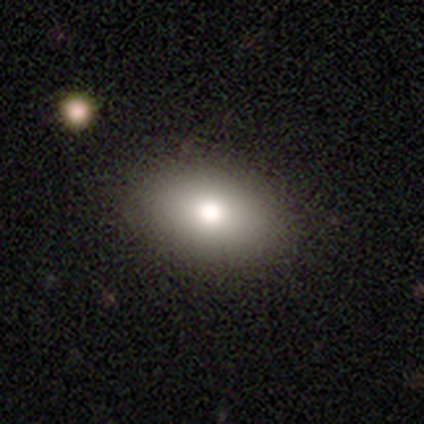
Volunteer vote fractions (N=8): smooth_or_featured: smooth (p=1.00)
how_rounded: in between (p=0.75) [alt: round p=0.25]
merging: none (p=0.88) [alt: major disturbance p=0.12]